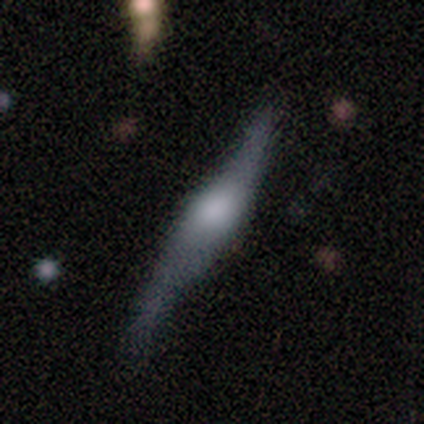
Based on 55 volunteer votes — Smooth or featured: featured or disk — 78% (smooth — 18%)
Edge-on disk: yes — 81% (no — 19%)
Edge-on bulge: rounded — 83% (boxy — 11%)
Merging: none — 47% (minor disturbance — 42%)